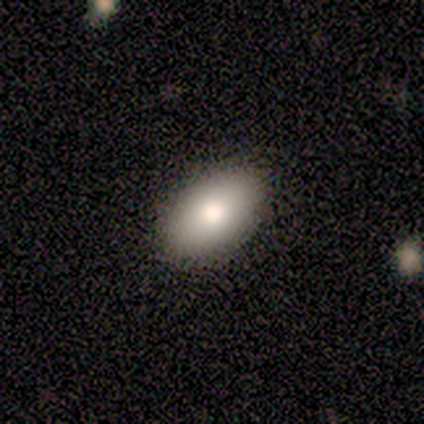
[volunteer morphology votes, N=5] smooth 60%, featured or disk 20%, star or artifact 20%. Down the decision tree: how rounded — in between (100%); merging — none (100%).